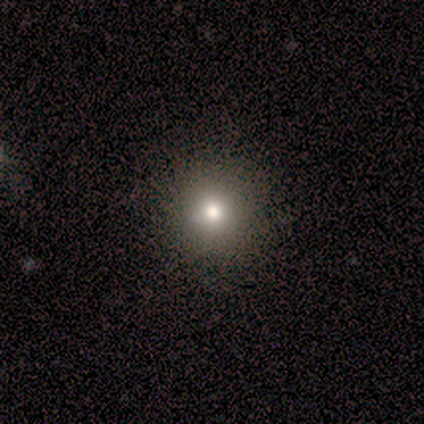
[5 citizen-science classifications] Q: Smooth or featured?
A: smooth (60%); runner-up: featured or disk (40%)
Q: How rounded?
A: round (100%)
Q: Merging?
A: none (100%)